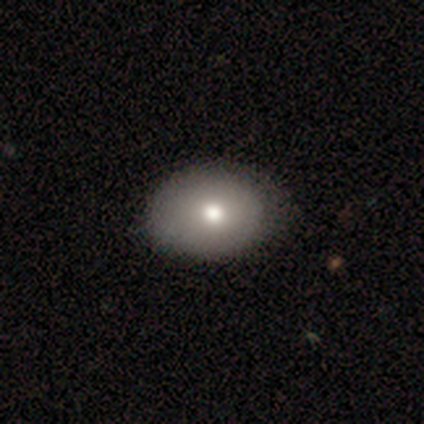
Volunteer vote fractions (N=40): Smooth or featured: smooth — 82% (featured or disk — 15%)
How rounded: in between — 55% (round — 45%)
Merging: none — 49% (minor disturbance — 13%)